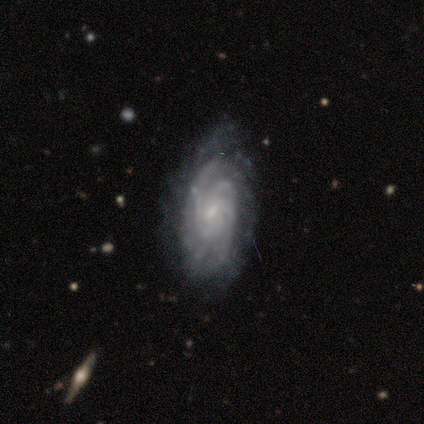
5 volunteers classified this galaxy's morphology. Smooth or featured: featured or disk — 100%
Edge-on disk: no — 60% (yes — 40%)
Bar: no — 67% (weak — 33%)
Spiral arms: yes — 100%
Spiral winding: tight — 100%
Spiral arm count: 2 — 33% (tied with 4 — 33%; can't tell — 33%)
Bulge size: small — 100%
Merging: minor disturbance — 40% (tied with major disturbance — 40%)